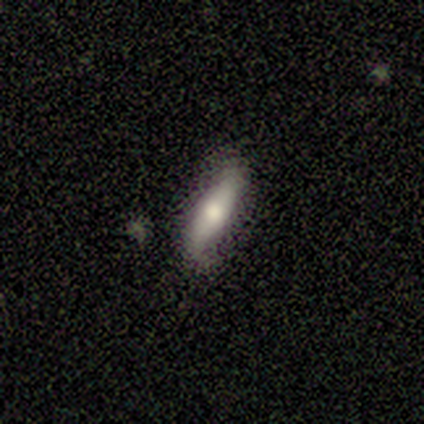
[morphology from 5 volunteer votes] Smooth or featured: smooth — 80% (featured or disk — 20%)
How rounded: cigar-shaped — 75% (in between — 25%)
Merging: none — 60% (minor disturbance — 40%)